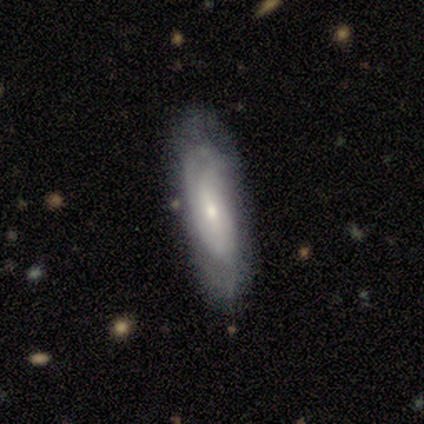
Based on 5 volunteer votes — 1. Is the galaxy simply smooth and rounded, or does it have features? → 60% smooth, 40% featured or disk, 0% star or artifact.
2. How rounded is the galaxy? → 67% in between, 33% cigar-shaped, 0% round.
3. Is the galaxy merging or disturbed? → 60% none, 40% minor disturbance, 0% major disturbance, 0% merger.